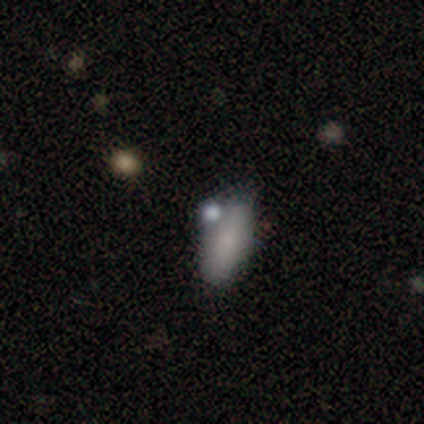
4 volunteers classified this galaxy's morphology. This is clearly a smooth galaxy (100%). How rounded: likely in between (75%). Merging: likely none (75%).